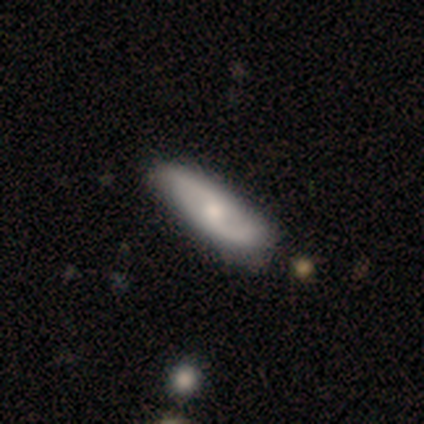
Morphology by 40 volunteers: smooth-or-featured: featured or disk: 65% | smooth: 32% | star or artifact: 2%
  disk-edge-on: no: 92% | yes: 8%
    bar: no: 54% | weak: 42% | strong: 4%
    has-spiral-arms: yes: 96% | no: 4%
      spiral-winding: loose: 70% | medium: 17% | tight: 13%
      spiral-arm-count: 2: 83% | can't tell: 17% | 1: 0% | 3: 0% | 4: 0% | more than 4: 0%
    bulge-size: moderate: 50% | small: 33% | large: 8% | none: 8% | dominant: 0%
  merging: none: 67% | minor disturbance: 13% | major disturbance: 3% | merger: 0%